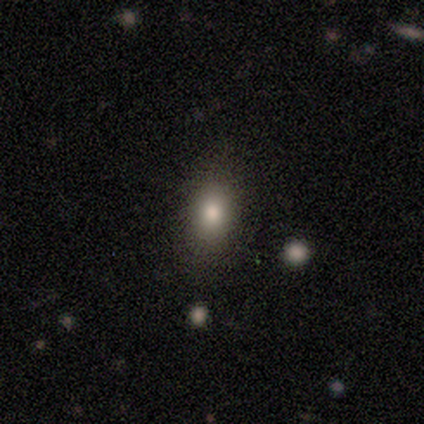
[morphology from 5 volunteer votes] Smooth or featured? smooth (100%)
How rounded? in between (100%)
Merging? none (100%)